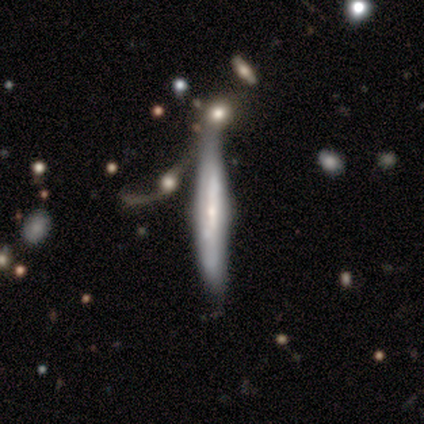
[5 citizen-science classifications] Q: Smooth or featured?
A: featured or disk (80%); runner-up: smooth (20%)
Q: Edge-on disk?
A: yes (50%); tied with: no (50%)
Q: Edge-on bulge?
A: rounded (100%)
Q: Merging?
A: none (40%); tied with: merger (40%)